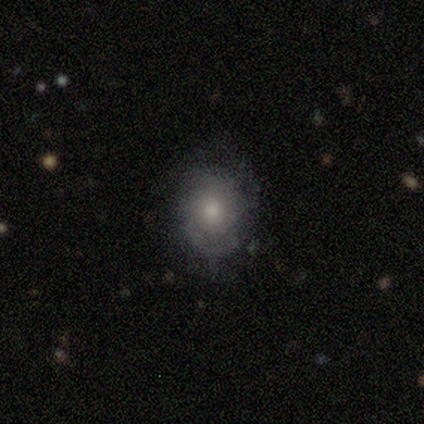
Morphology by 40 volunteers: Smooth or featured? smooth (45%)
How rounded? in between (56%)
Merging? none (63%)